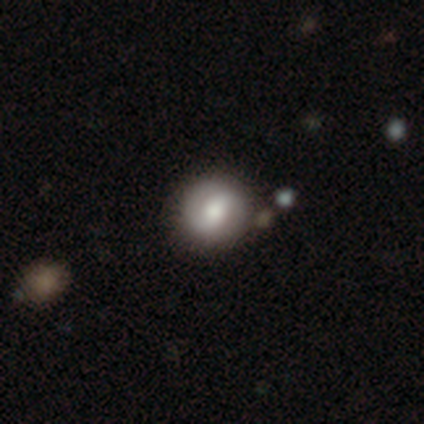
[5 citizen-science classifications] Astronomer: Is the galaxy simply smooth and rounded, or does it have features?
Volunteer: smooth — 60%.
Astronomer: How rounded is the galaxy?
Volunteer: round — 100%.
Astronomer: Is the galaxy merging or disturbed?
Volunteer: none — 75%.